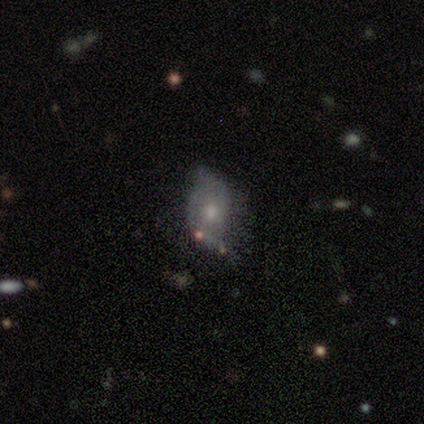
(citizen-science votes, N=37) Morphology: type=featured or disk (68%); edge-on=no (96%); bar=no (88%); spiral arms=yes (62%); winding=loose (40%); arm count=2 (73%); bulge=small (58%); merging=none (47%).